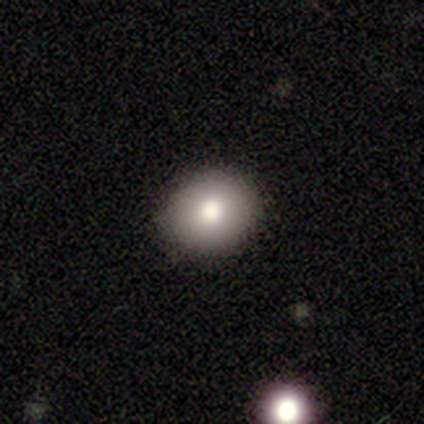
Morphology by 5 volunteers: Smooth or featured? smooth (100%)
How rounded? round (80%)
Merging? none (100%)